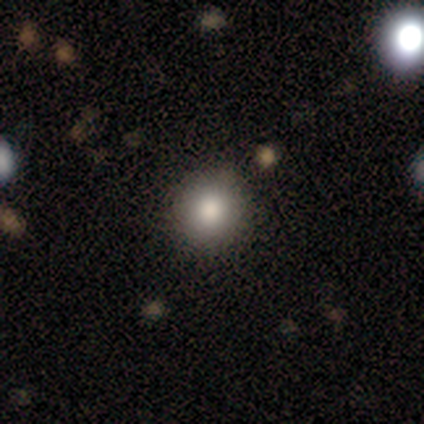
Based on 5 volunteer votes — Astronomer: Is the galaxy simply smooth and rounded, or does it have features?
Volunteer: smooth — 100%.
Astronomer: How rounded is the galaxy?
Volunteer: round — 100%.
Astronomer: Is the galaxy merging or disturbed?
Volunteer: none — 100%.